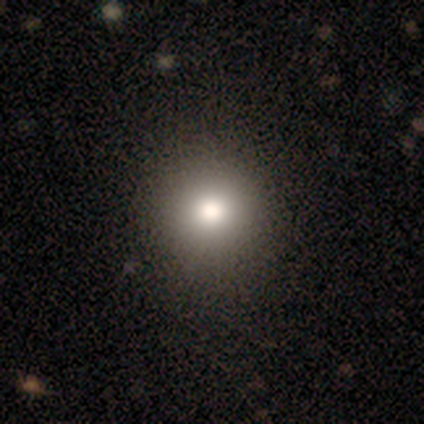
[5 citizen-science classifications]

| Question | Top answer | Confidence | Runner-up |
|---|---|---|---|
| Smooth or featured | smooth | 60% | featured or disk (20%) |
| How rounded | round | 100% | — |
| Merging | none | 100% | — |